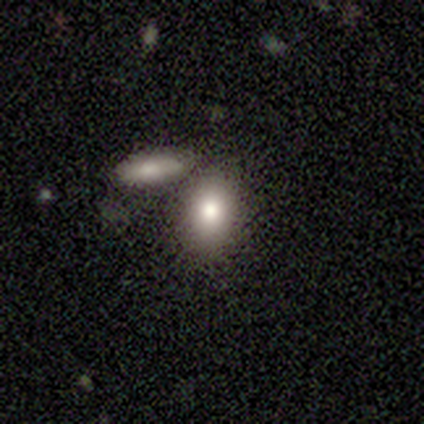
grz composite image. It shows a smooth galaxy with no disk features (80%) that is in between round and cigar-shaped (75%). Merging: none (60%).